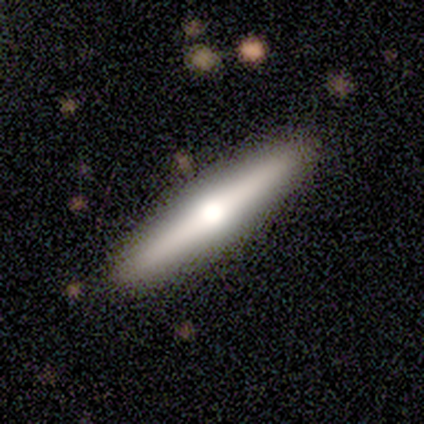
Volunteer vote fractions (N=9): A featured or disk galaxy (67%) viewed edge-on (100%) with a rounded central bulge (100%).

Vote fractions:
- Smooth or featured? featured or disk: 67% / smooth: 33% / star or artifact: 0%
- Edge-on disk? yes: 100% / no: 0%
- Edge-on bulge? rounded: 100% / boxy: 0% / none: 0%
- Merging? none: 89% / minor disturbance: 11% / major disturbance: 0% / merger: 0%